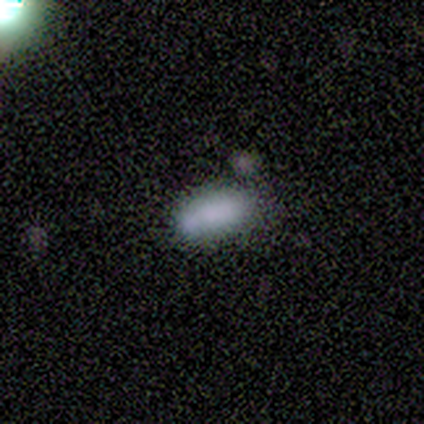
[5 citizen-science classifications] Morphology: type=smooth (100%); roundness=in between (100%); merging=none (60%).